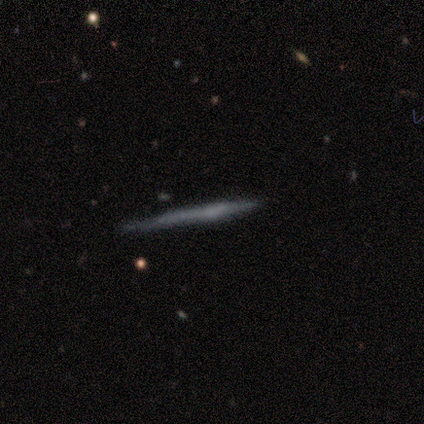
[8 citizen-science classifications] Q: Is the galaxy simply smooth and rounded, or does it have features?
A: featured or disk — 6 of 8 (75%).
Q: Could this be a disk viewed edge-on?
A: yes — 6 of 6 (100%).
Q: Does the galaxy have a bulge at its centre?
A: none — 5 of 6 (83%).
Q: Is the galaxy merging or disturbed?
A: none — 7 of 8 (88%).